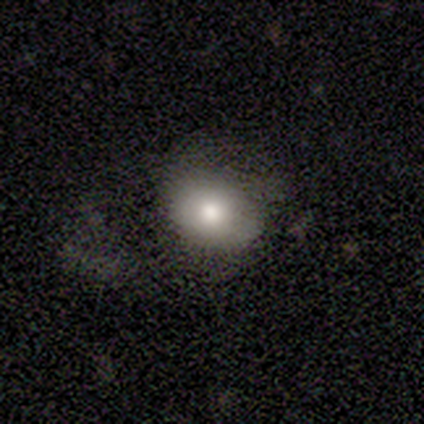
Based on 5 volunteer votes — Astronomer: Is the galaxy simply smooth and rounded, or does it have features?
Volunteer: smooth — 80%.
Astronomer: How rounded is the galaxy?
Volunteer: round — 50%, tied with in between at 50%.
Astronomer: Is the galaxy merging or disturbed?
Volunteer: none — 100%.